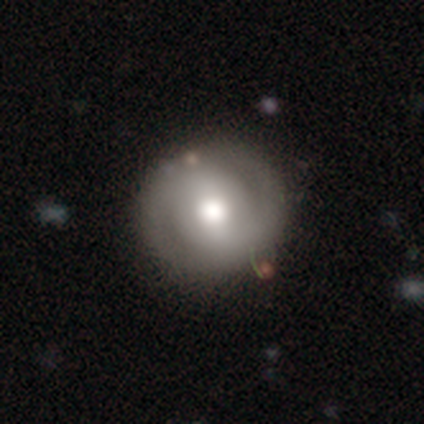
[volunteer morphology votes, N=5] type=featured or disk (60%); edge-on=no (100%); bar=no (67%); spiral arms=yes (67%); winding=tight (50%, tied with medium); arm count=2 (100%); bulge=moderate (100%); merging=none (80%).